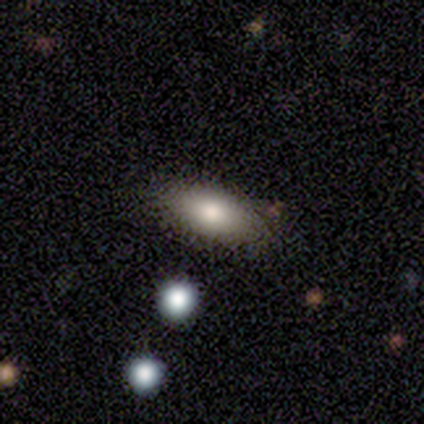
Morphology: type=smooth (100%); roundness=in between (100%); merging=none (100%).